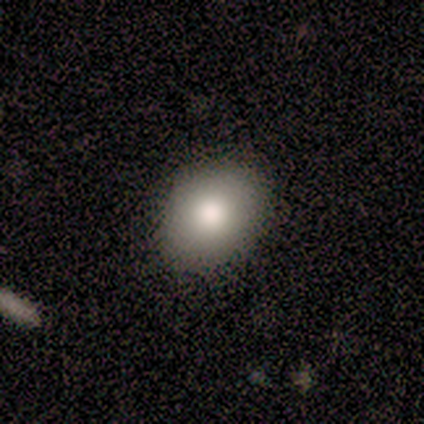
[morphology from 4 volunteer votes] Smooth or featured: smooth — 75% (star or artifact — 25%)
How rounded: in between — 67% (round — 33%)
Merging: none — 100%